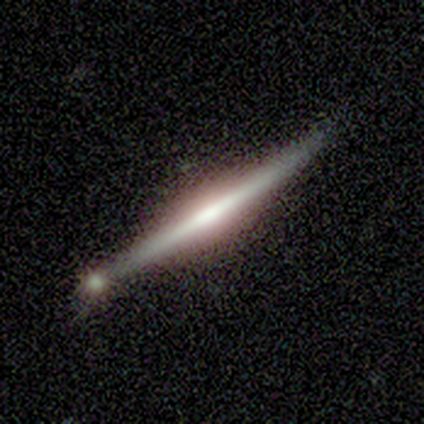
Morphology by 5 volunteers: This appears to be a featured or disk galaxy (60%) viewed edge-on (100%) with a rounded central bulge (100%). Merging: none (100%).